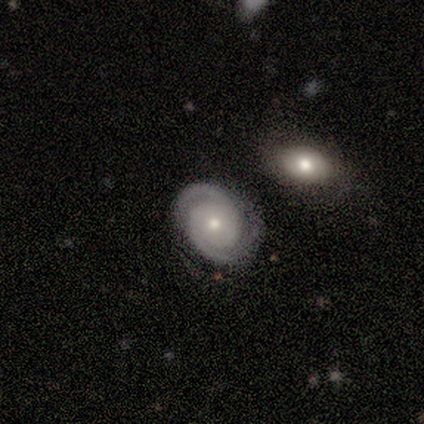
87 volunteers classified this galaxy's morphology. featured or disk 86%, smooth 8%, star or artifact 6%. Down the decision tree: edge-on disk — no (100%); bar — no (84%); spiral arms — yes (100%); spiral arm count — 2 (96%); spiral winding — tight (79%); bulge size — moderate (55%); merging — none (67%).